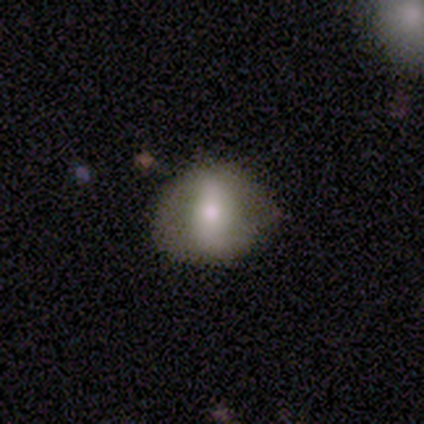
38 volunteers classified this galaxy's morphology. smooth 47%, featured or disk 45%, star or artifact 8%. Down the decision tree: how rounded — round (50%); merging — none (71%).